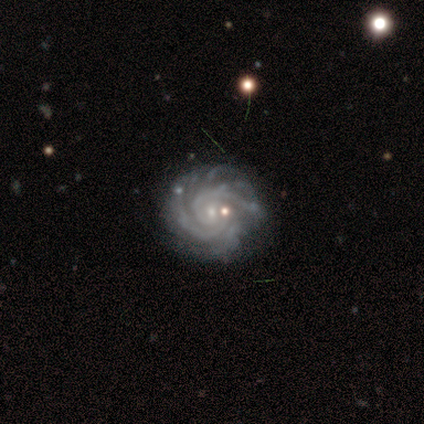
Smooth or featured: featured or disk — 92% (smooth — 8%)
Edge-on disk: no — 97% (yes — 3%)
Bar: no — 77% (weak — 23%)
Spiral arms: yes — 100%
Spiral winding: tight — 86% (medium — 14%)
Spiral arm count: more than 4 — 37% (2 — 26%)
Bulge size: small — 83% (moderate — 14%)
Merging: none — 64% (minor disturbance — 28%)